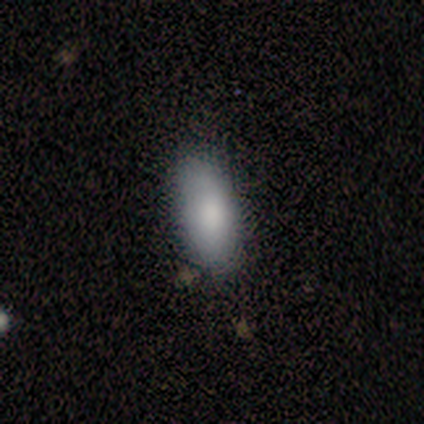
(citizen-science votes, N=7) A smooth galaxy with no disk features (86%) that is in between round and cigar-shaped (67%). Merging: none (100%).